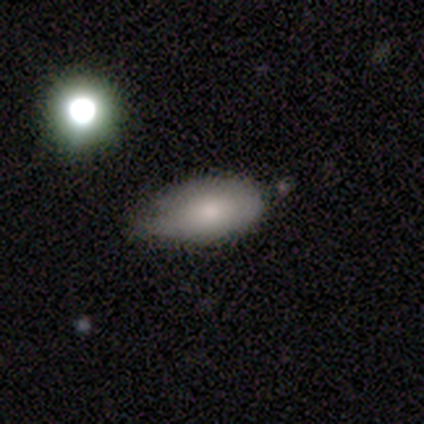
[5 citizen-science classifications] Smooth or featured?
  - smooth: 100% *
  - featured or disk: 0%
  - star or artifact: 0%
How rounded?
  - in between: 80% *
  - cigar-shaped: 20%
  - round: 0%
Merging?
  - minor disturbance: 60% *
  - none: 40%
  - major disturbance: 0%
  - merger: 0%